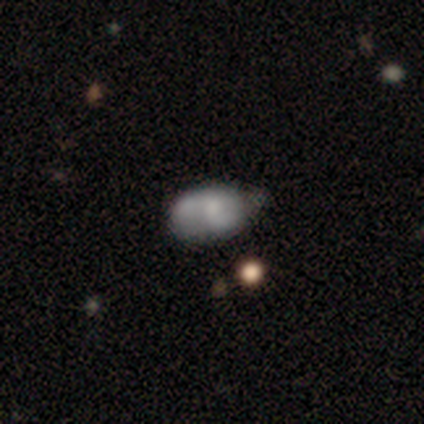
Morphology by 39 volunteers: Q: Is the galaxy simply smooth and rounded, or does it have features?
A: smooth — 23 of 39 (59%).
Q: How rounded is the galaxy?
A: in between — 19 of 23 (83%).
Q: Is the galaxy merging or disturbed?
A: minor disturbance — 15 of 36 (42%).